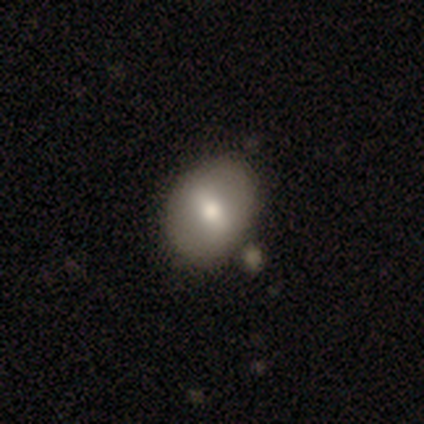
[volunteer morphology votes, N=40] A smooth galaxy with no disk features (60%) that is in between round and cigar-shaped (58%). Merging: none (49%).